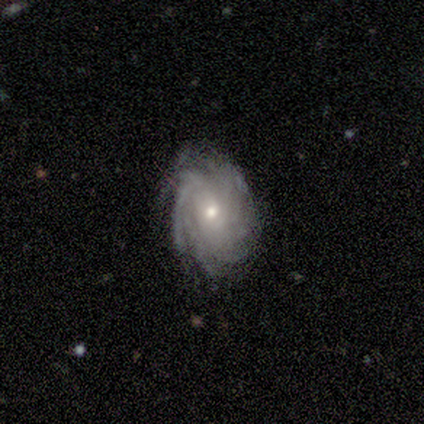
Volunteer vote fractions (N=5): This is clearly a featured or disk galaxy (80%). It is clearly not viewed edge-on (100%). Bar: possibly weak (50%, tied with no). Spiral arm pattern: clearly yes (100%). Spiral arm count: possibly 4 (50%, tied with more than 4). Spiral winding: likely tight (75%). Central bulge: possibly small (50%). Merging: likely none (75%).